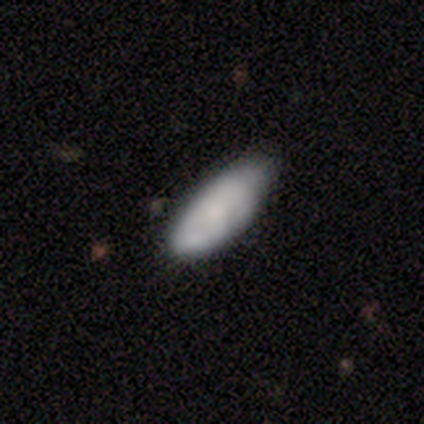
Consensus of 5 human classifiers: Smooth or featured?
  - smooth: 60% *
  - featured or disk: 20%
  - star or artifact: 20%
How rounded?
  - in between: 67% *
  - cigar-shaped: 33%
  - round: 0%
Merging?
  - none: 75% *
  - minor disturbance: 25%
  - major disturbance: 0%
  - merger: 0%